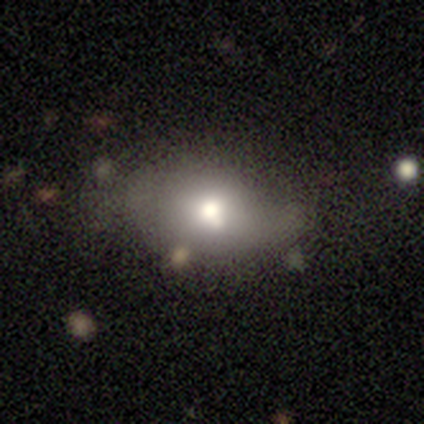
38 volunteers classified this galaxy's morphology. This appears to be a smooth galaxy with no disk features (66%) that is in between round and cigar-shaped (80%). Merging: none (42%).